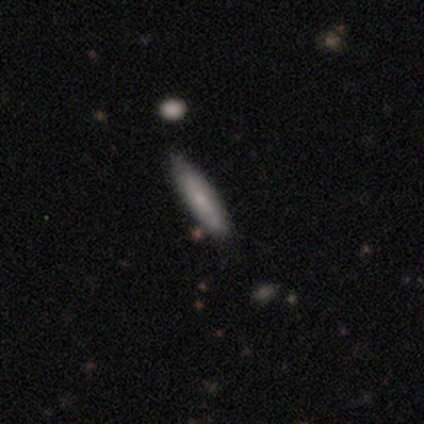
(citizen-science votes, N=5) smooth 60%, featured or disk 20%, star or artifact 20%. Down the decision tree: how rounded — cigar-shaped (100%); merging — none (75%).